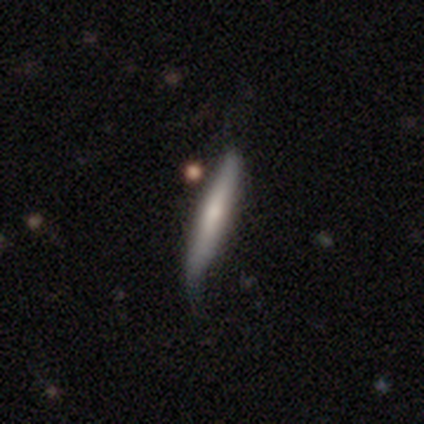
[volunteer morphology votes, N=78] Smooth or featured?
  - smooth: 60% *
  - featured or disk: 40%
  - star or artifact: 0%
How rounded?
  - cigar-shaped: 94% *
  - in between: 6%
  - round: 0%
Merging?
  - none: 23% * (tied)
  - minor disturbance: 23% * (tied)
  - major disturbance: 8%
  - merger: 6%